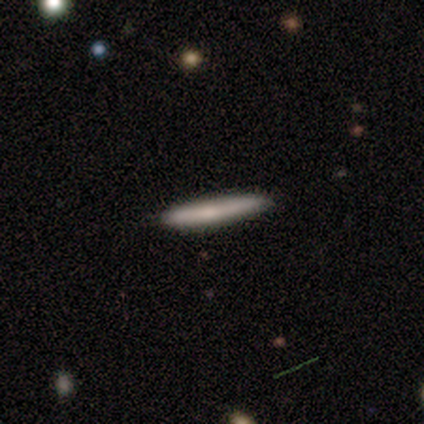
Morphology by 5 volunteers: smooth-or-featured: smooth: 80% | featured or disk: 20% | star or artifact: 0%
  how-rounded: cigar-shaped: 100% | round: 0% | in between: 0%
  merging: none: 80% | minor disturbance: 20% | major disturbance: 0% | merger: 0%